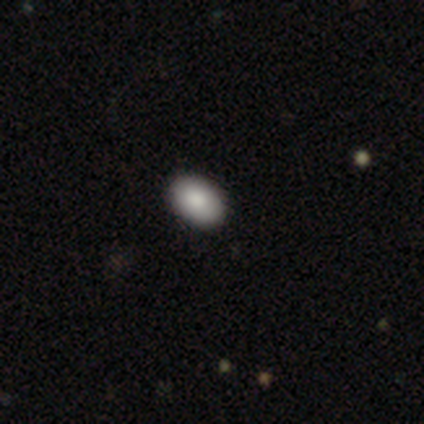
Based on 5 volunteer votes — A smooth galaxy with no disk features (100%) that is in between round and cigar-shaped (100%). Merging: none (100%).